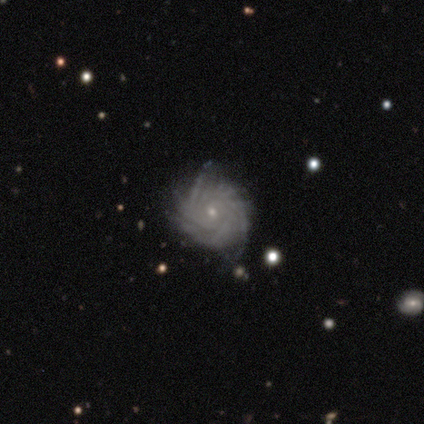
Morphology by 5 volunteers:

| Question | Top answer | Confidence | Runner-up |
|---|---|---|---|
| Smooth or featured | featured or disk | 100% | — |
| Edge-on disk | no | 100% | — |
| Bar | no | 100% | — |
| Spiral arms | yes | 100% | — |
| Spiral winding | tight | 100% | — |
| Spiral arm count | can't tell | 80% | more than 4 (20%) |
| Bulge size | small | 80% | none (20%) |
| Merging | none | 80% | minor disturbance (20%) |